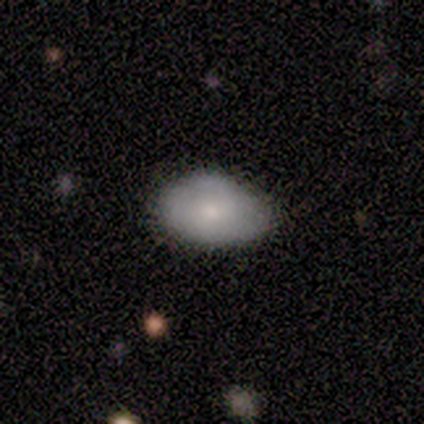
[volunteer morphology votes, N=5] Smooth or featured? smooth (80%)
How rounded? in between (75%)
Merging? none (60%)